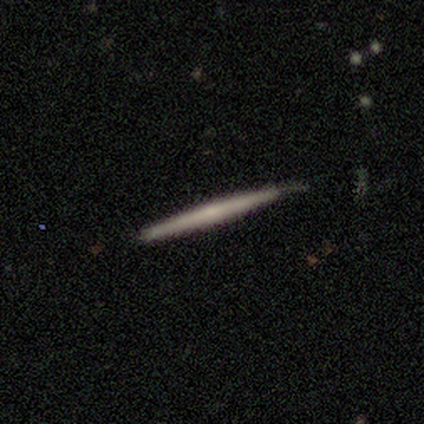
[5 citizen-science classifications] This appears to be a featured or disk galaxy (100%) viewed edge-on (100%) with a rounded central bulge (80%). Merging: none (60%).